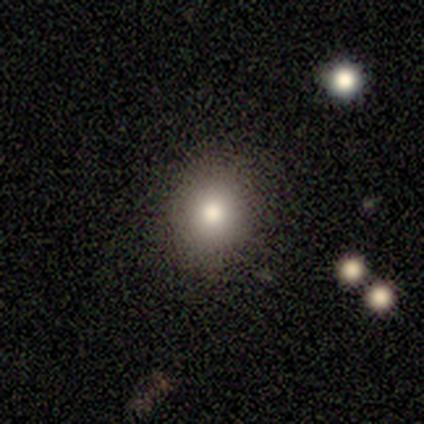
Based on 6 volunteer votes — Smooth or featured? 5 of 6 (83%) said smooth. How rounded? 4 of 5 (80%) said round. Merging? 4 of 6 (67%) said none.